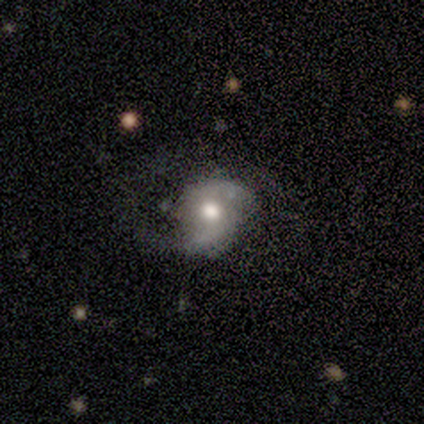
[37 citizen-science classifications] smooth_or_featured: featured or disk (p=0.70) [alt: smooth p=0.27]
disk_edge_on: no (p=0.92) [alt: yes p=0.08]
bar: no (p=0.58) [alt: weak p=0.38]
has_spiral_arms: yes (p=0.92) [alt: no p=0.08]
spiral_winding: medium (p=0.50) [alt: loose p=0.45]
spiral_arm_count: 2 (p=0.64) [alt: 1 p=0.18]
bulge_size: moderate (p=0.71) [alt: large p=0.17]
merging: none (p=0.58) [alt: minor disturbance p=0.33]